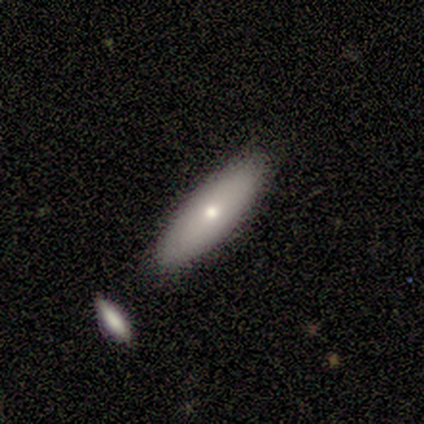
Morphology: type=smooth (67%); roundness=in between (50%, tied with cigar-shaped); merging=none (75%).